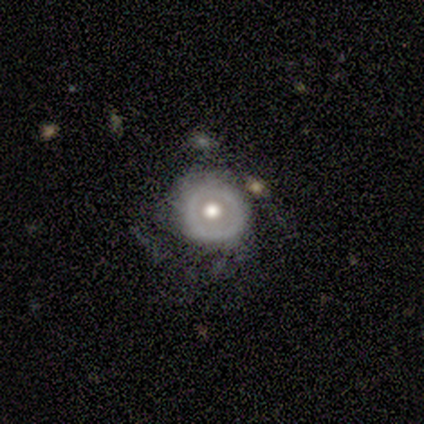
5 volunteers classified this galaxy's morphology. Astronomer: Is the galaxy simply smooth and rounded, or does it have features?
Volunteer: featured or disk — 80%.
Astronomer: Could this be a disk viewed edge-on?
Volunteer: no — 100%.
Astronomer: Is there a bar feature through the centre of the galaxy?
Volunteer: no — 75%.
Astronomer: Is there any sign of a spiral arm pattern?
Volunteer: yes — 50%, tied with no at 50%.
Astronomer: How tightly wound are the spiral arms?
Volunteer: medium — 50%, tied with loose at 50%.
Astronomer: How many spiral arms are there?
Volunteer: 2 — 50%, tied with 3 at 50%.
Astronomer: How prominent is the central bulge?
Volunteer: moderate — 75%.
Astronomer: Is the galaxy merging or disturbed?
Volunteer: none — 40%, tied with minor disturbance at 40%.